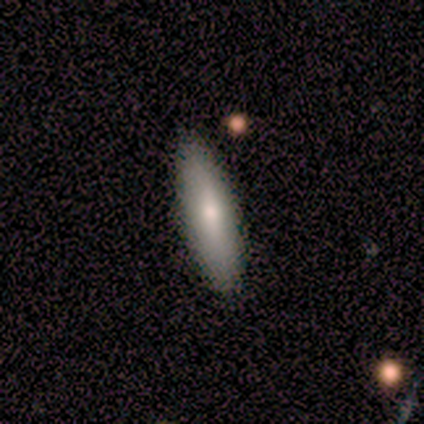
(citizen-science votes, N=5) Smooth or featured?
  - featured or disk: 60% *
  - smooth: 40%
  - star or artifact: 0%
Edge-on disk?
  - no: 67% *
  - yes: 33%
Bar?
  - weak: 50% * (tied)
  - no: 50% * (tied)
  - strong: 0%
Spiral arms?
  - no: 100% *
  - yes: 0%
Bulge size?
  - moderate: 50% * (tied)
  - small: 50% * (tied)
  - dominant: 0%
  - large: 0%
  - none: 0%
Merging?
  - none: 80% *
  - minor disturbance: 20%
  - major disturbance: 0%
  - merger: 0%